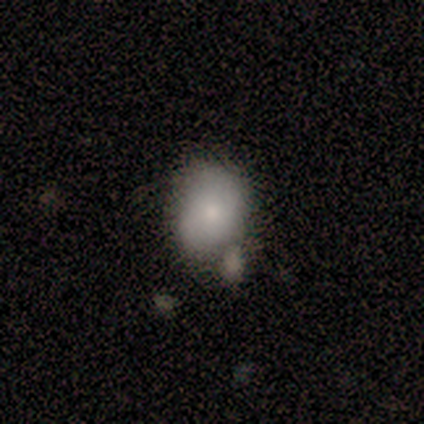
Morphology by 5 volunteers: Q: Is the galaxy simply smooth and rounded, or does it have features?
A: smooth — 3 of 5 (60%).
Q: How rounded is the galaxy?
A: in between — 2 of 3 (67%).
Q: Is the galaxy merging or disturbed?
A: none — 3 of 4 (75%).